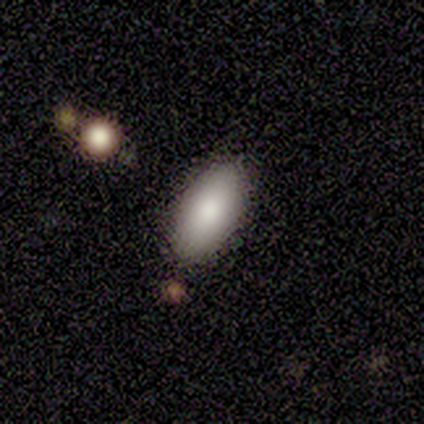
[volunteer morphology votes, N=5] This appears to be a smooth galaxy with no disk features (60%) that is in between round and cigar-shaped (67%). Merging: none (80%).